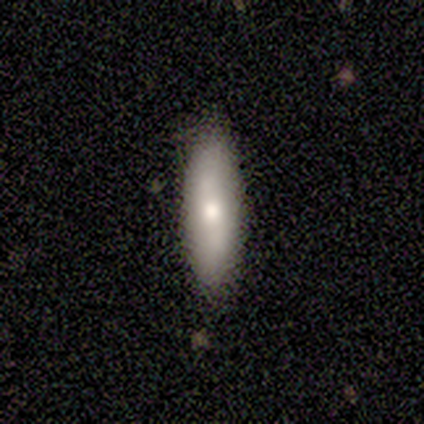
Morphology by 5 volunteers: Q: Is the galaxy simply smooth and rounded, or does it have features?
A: smooth — 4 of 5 (80%).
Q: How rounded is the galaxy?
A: cigar-shaped — 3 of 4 (75%).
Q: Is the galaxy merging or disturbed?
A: none — 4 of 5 (80%).